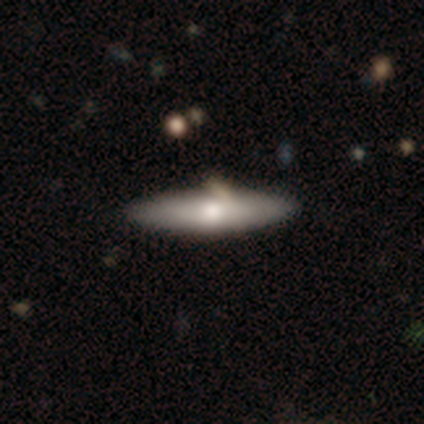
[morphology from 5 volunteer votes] smooth-or-featured: smooth: 60% | featured or disk: 40% | star or artifact: 0%
  how-rounded: in between: 67% | cigar-shaped: 33% | round: 0%
  merging: none: 80% | minor disturbance: 20% | major disturbance: 0% | merger: 0%